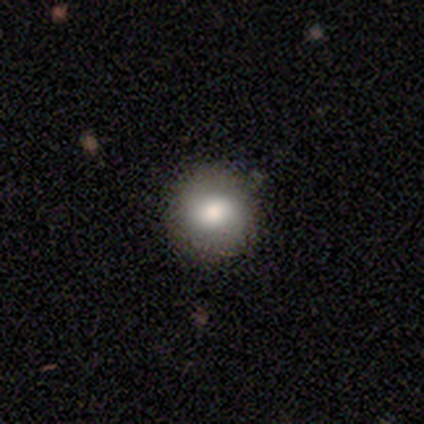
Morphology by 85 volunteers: Volunteers were most divided on "smooth or featured": smooth: 78%, featured or disk: 13%, star or artifact: 9%. More confident: how rounded — round (92%); merging — none (88%).